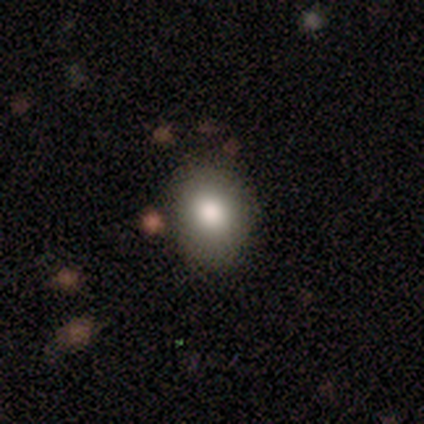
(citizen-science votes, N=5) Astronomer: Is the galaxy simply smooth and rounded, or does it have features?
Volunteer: smooth — 100%.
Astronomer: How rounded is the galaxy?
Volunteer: round — 60% (runner-up: in between, 40%).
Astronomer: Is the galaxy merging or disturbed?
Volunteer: none — 60% (runner-up: minor disturbance, 40%).